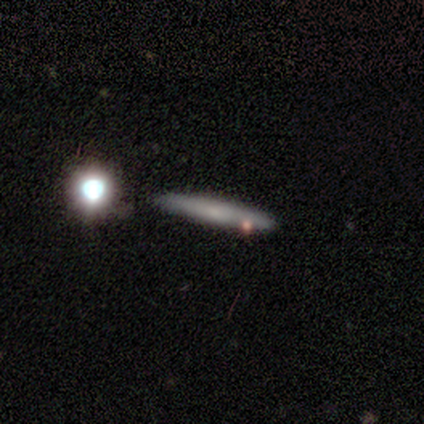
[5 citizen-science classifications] Volunteers were most divided on "smooth or featured" (2-way tie): smooth: 40%, featured or disk: 40%, star or artifact: 20%. More confident: how rounded — cigar-shaped (100%); merging — none (75%).